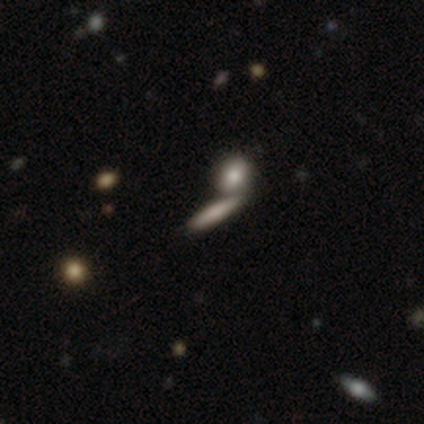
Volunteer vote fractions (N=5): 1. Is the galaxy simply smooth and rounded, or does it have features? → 40% smooth (tied), 40% star or artifact (tied), 20% featured or disk.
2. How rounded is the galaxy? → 100% cigar-shaped, 0% round, 0% in between.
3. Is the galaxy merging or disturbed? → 100% none, 0% minor disturbance, 0% major disturbance, 0% merger.